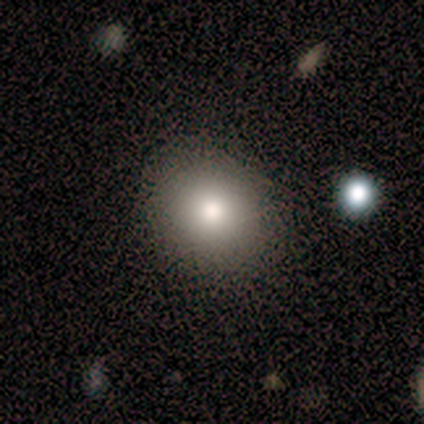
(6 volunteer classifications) Smooth or featured?
  - smooth: 83% *
  - featured or disk: 17%
  - star or artifact: 0%
How rounded?
  - round: 80% *
  - in between: 20%
  - cigar-shaped: 0%
Merging?
  - none: 100% *
  - minor disturbance: 0%
  - major disturbance: 0%
  - merger: 0%